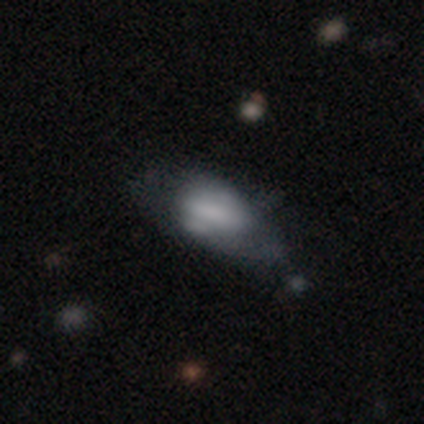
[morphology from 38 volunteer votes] smooth_or_featured: smooth (p=0.61) [alt: featured or disk p=0.32]
how_rounded: in between (p=0.87) [alt: cigar-shaped p=0.09]
merging: minor disturbance (p=0.34) [alt: none p=0.31]